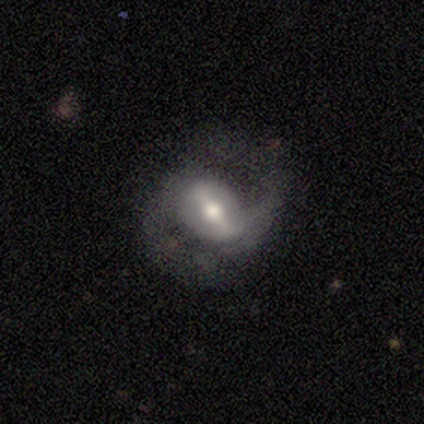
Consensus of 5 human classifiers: featured or disk 100%, smooth 0%, star or artifact 0%. Down the decision tree: edge-on disk — no (80%); bar — strong (100%); spiral arms — yes (100%); spiral arm count — 2 (100%); spiral winding — medium (75%); bulge size — moderate (50%); merging — none (100%).